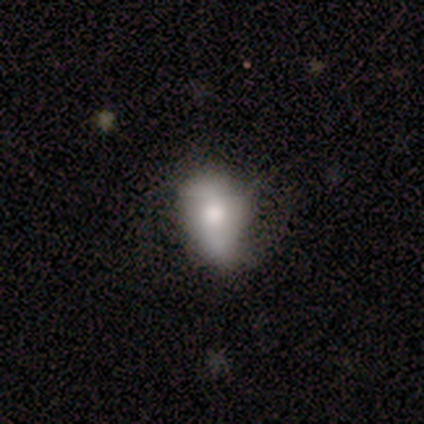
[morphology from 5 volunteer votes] Volunteers were most divided on "merging" (2-way tie): none: 40%, minor disturbance: 40%, major disturbance: 20%, merger: 0%. More confident: how rounded — in between (100%); smooth or featured — smooth (60%).